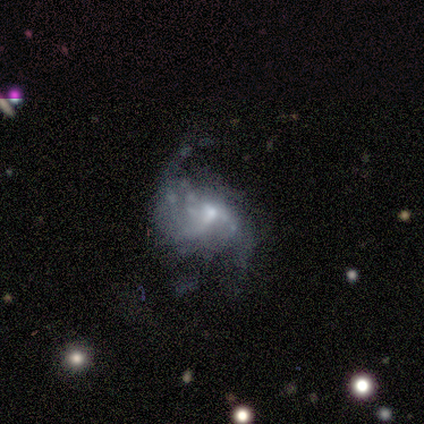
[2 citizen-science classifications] featured or disk 50% (tied), star or artifact 50% (tied), smooth 0%. Down the decision tree: edge-on disk — no (100%); bar — no (100%); spiral arms — no (100%); bulge size — small (100%); merging — minor disturbance (100%).